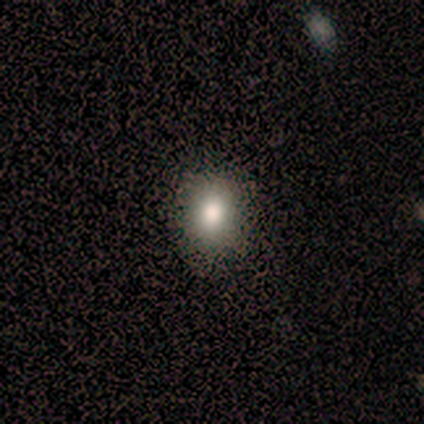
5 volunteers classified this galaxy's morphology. smooth_or_featured: smooth (p=1.00)
how_rounded: in between (p=0.60) [alt: round p=0.40]
merging: none (p=1.00)